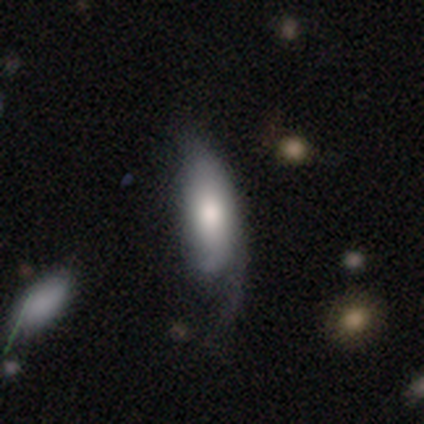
This is possibly a featured or disk galaxy (53%). It is likely not viewed edge-on (62%). Bar: clearly no (100%). Spiral arm pattern: likely yes (60%). Spiral arm count: likely 1 (67%). Spiral winding: likely tight (67%). Central bulge: likely moderate (60%). Merging: possibly minor disturbance (50%).